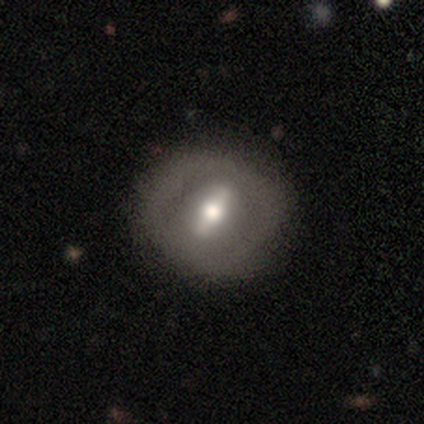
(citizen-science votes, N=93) featured or disk 58%, smooth 33%, star or artifact 9%. Down the decision tree: edge-on disk — no (80%); bar — strong (65%); spiral arms — no (81%); bulge size — moderate (77%); merging — none (75%).